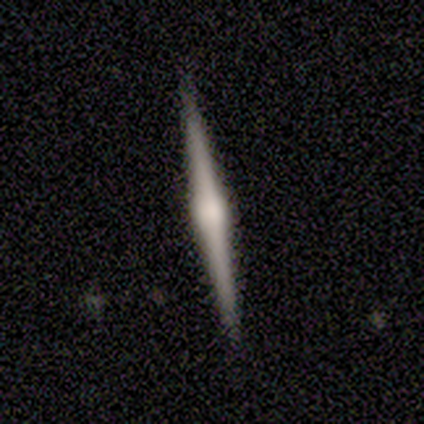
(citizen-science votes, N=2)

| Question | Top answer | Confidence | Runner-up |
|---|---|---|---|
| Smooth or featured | featured or disk | 100% | — |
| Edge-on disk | yes | 100% | — |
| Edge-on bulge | rounded | 100% | — |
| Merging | none | 100% | — |